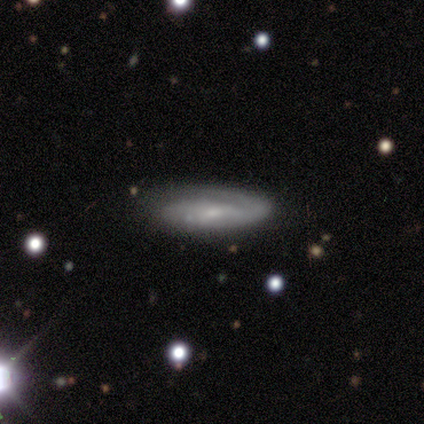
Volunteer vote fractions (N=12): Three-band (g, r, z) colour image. It shows a featured or disk galaxy (67%) with no bar (86%), medium (43%, tied with loose) spiral arms (100%) and a moderate central bulge (43%, tied with small). Merging: none (67%).